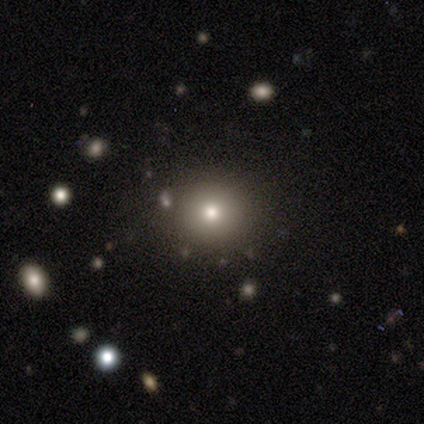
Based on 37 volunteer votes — A smooth galaxy with no disk features (84%) that is round (90%). Merging: none (97%).